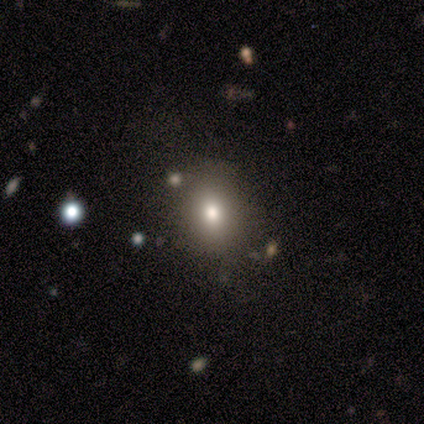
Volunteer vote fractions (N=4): Smooth or featured?
  - star or artifact: 50% *
  - smooth: 25%
  - featured or disk: 25%